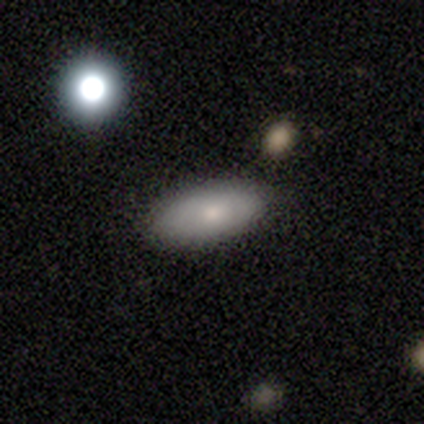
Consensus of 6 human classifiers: Smooth or featured: smooth — 100%
How rounded: in between — 100%
Merging: none — 83% (minor disturbance — 17%)